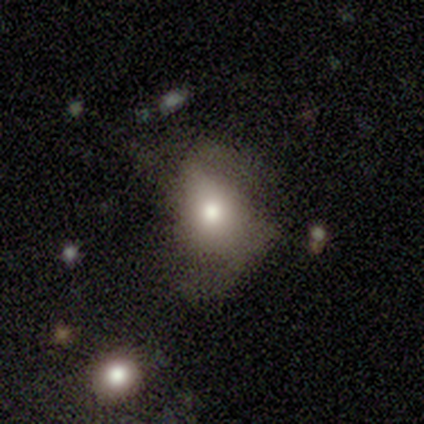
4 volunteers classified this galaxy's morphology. A smooth galaxy with no disk features (75%) that is in between round and cigar-shaped (100%).

Vote fractions:
- Smooth or featured? smooth: 75% / featured or disk: 25% / star or artifact: 0%
- How rounded? in between: 100% / round: 0% / cigar-shaped: 0%
- Merging? minor disturbance: 50% (tied) / major disturbance: 50% (tied) / none: 0% / merger: 0%